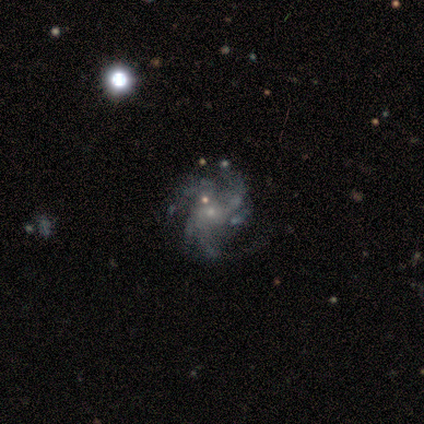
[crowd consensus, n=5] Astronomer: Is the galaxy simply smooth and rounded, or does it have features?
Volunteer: featured or disk — 100%.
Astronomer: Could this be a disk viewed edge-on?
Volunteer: no — 100%.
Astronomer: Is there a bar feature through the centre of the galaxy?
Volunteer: no — 100%.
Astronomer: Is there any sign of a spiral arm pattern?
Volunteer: yes — 100%.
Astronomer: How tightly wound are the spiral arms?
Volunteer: medium — 80%.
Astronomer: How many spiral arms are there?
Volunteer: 3 — 40% (runner-up: 2, 20%).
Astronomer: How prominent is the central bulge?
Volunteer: small — 60% (runner-up: none, 40%).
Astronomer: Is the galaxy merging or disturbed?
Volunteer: none — 40%, tied with minor disturbance at 40%.